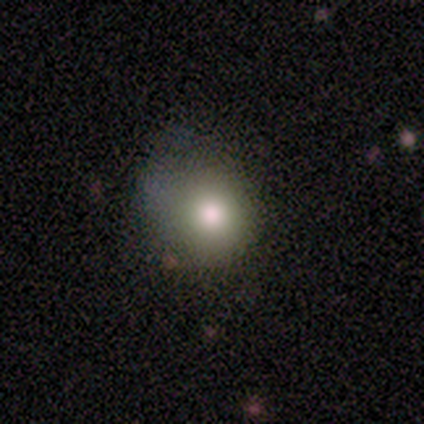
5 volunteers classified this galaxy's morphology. Smooth or featured? smooth (60%)
How rounded? round (100%)
Merging? none (50%, tied with minor disturbance)